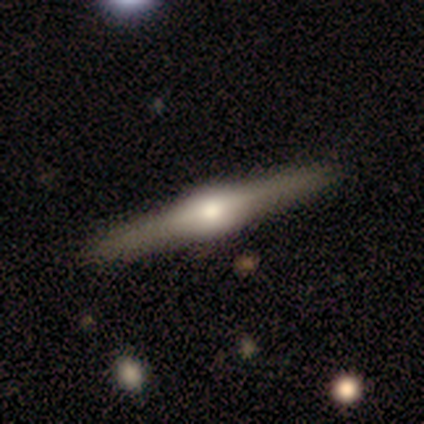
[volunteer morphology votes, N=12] Smooth or featured? featured or disk (92%)
Edge-on disk? yes (100%)
Edge-on bulge? rounded (91%)
Merging? none (100%)